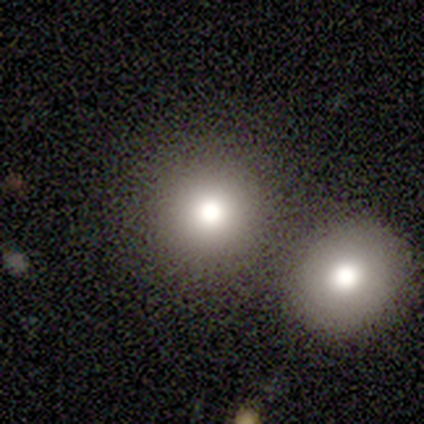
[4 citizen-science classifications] This appears to be a smooth galaxy with no disk features (50%) that is round (100%). Merging: none (100%).